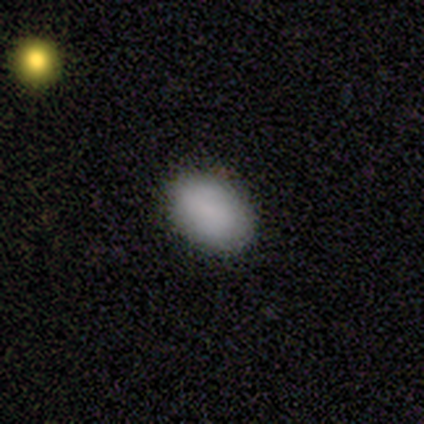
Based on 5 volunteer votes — Overall: smooth (100%). How rounded: in between (100%). Merging: none (80%).